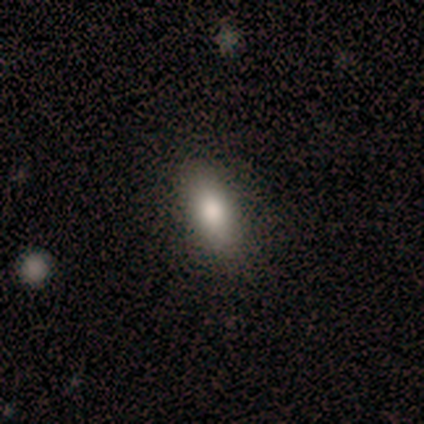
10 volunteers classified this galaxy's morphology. Smooth or featured?
  - smooth: 70% *
  - star or artifact: 20%
  - featured or disk: 10%
How rounded?
  - in between: 71% *
  - cigar-shaped: 29%
  - round: 0%
Merging?
  - none: 100% *
  - minor disturbance: 0%
  - major disturbance: 0%
  - merger: 0%